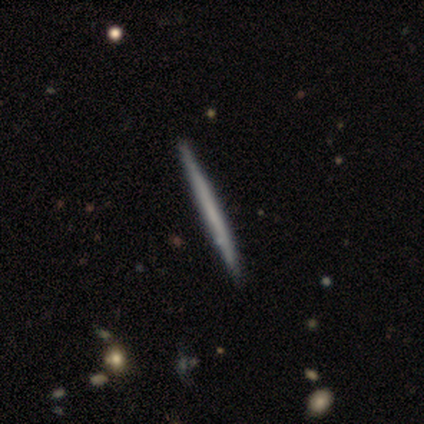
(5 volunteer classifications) Smooth or featured? 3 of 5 (60%) said featured or disk. Edge-on disk? 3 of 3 (100%) said yes. Edge-on bulge? 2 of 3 (67%) said none. Merging? 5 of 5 (100%) said none.